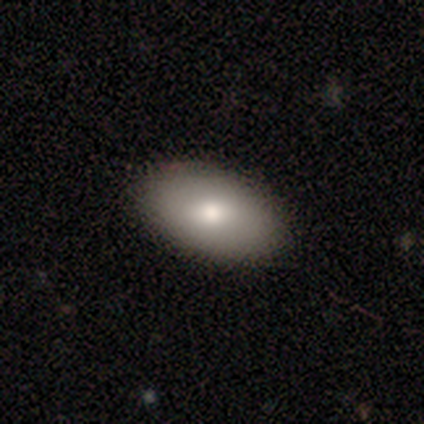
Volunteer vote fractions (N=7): Smooth or featured? smooth (86%)
How rounded? in between (83%)
Merging? none (86%)